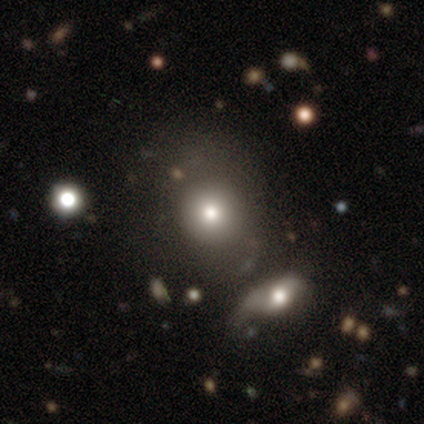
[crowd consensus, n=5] Smooth or featured: smooth — 80% (star or artifact — 20%)
How rounded: round — 75% (in between — 25%)
Merging: none — 100%